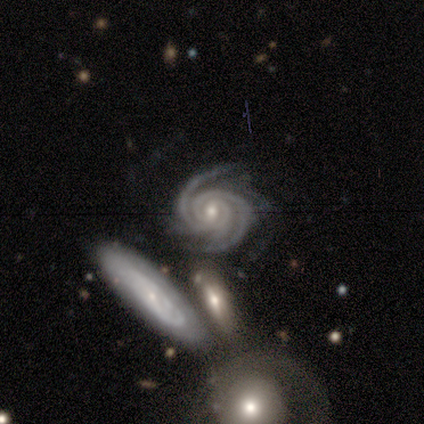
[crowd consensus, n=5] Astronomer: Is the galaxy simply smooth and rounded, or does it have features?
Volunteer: featured or disk — 80%.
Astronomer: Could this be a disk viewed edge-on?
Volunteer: no — 100%.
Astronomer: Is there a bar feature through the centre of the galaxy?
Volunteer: strong — 50%, tied with weak at 50%.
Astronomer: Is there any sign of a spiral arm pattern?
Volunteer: yes — 100%.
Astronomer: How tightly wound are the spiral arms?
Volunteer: tight — 100%.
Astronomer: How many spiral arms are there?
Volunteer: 2 — 50%, tied with 3 at 50%.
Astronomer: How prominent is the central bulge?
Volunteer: moderate — 50%, tied with small at 50%.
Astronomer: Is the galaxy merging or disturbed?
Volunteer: none — 100%.